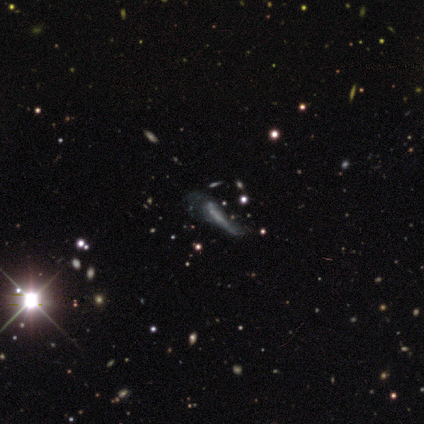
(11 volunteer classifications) Morphology: type=featured or disk (64%); edge-on=no (86%); bar=no (67%); spiral arms=no (67%); bulge=none (50%); merging=major disturbance (62%).